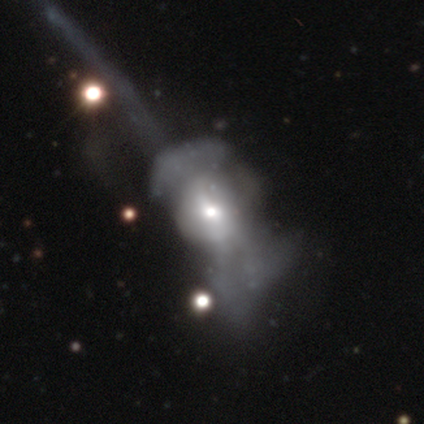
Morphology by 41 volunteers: A featured or disk galaxy (61%) with no bar (84%), no spiral arms (84%) and a moderate central bulge (68%).

Vote fractions:
- Smooth or featured? featured or disk: 61% / smooth: 24% / star or artifact: 15%
- Edge-on disk? no: 100% / yes: 0%
- Bar? no: 84% / weak: 16% / strong: 0%
- Spiral arms? no: 84% / yes: 16%
- Bulge size? moderate: 68% / small: 24% / large: 8% / dominant: 0% / none: 0%
- Merging? major disturbance: 71% / none: 20% / merger: 9% / minor disturbance: 0%